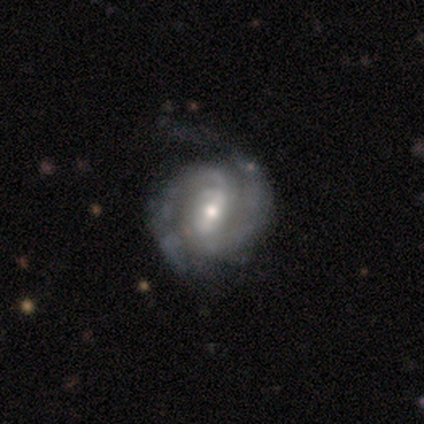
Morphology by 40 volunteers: smooth_or_featured: featured or disk (p=0.88) [alt: smooth p=0.07]
disk_edge_on: no (p=0.94) [alt: yes p=0.06]
bar: weak (p=0.55) [alt: strong p=0.24]
has_spiral_arms: yes (p=0.94) [alt: no p=0.06]
spiral_winding: tight (p=0.55) [alt: medium p=0.32]
spiral_arm_count: 2 (p=0.94) [alt: 1 p=0.03]
bulge_size: moderate (p=0.45) [alt: small p=0.39]
merging: none (p=0.47) [alt: minor disturbance p=0.13]